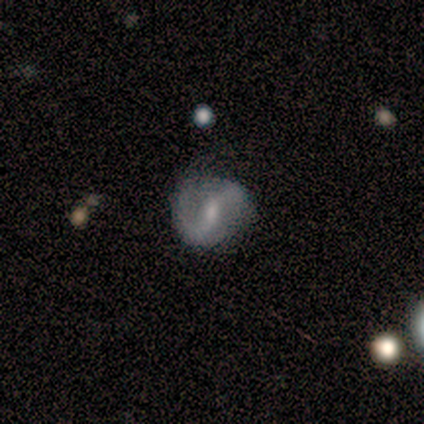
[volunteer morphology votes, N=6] A smooth galaxy with no disk features (67%) that is round (50%, tied with in between). Merging: none (33%, tied with minor disturbance).